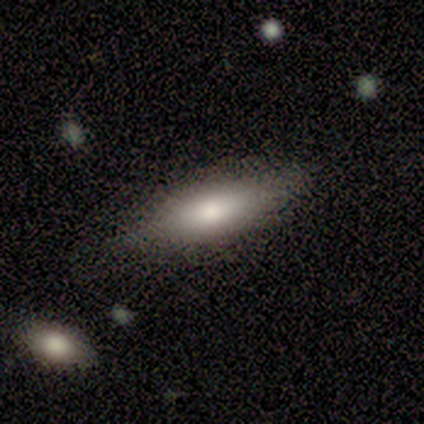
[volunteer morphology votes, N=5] type=smooth (100%); roundness=cigar-shaped (80%); merging=none (100%).